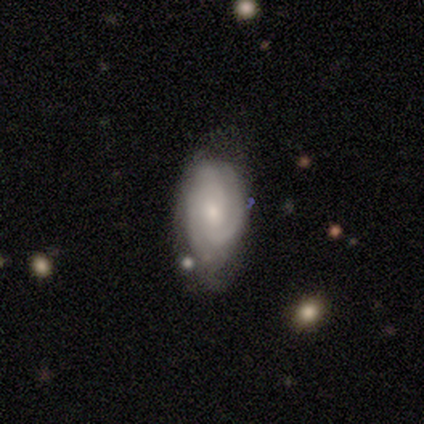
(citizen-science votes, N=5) This appears to be a smooth galaxy with no disk features (40%, tied with featured or disk) that is in between round and cigar-shaped (100%). Merging: none (75%).